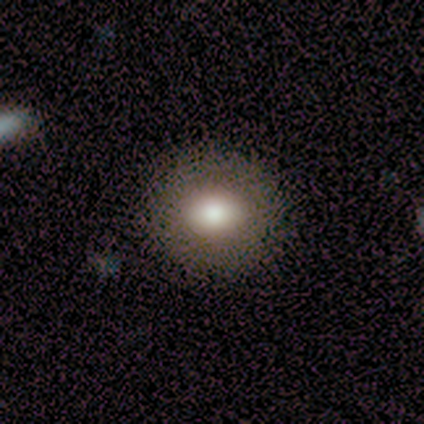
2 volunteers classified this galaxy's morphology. smooth 50% (tied), star or artifact 50% (tied), featured or disk 0%. Down the decision tree: how rounded — in between (100%); merging — none (100%).